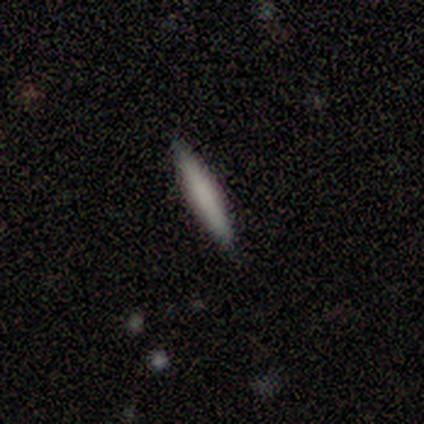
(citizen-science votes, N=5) A smooth galaxy with no disk features (80%) that is cigar-shaped (100%).

Vote fractions:
- Smooth or featured? smooth: 80% / featured or disk: 20% / star or artifact: 0%
- How rounded? cigar-shaped: 100% / round: 0% / in between: 0%
- Merging? none: 80% / minor disturbance: 20% / major disturbance: 0% / merger: 0%